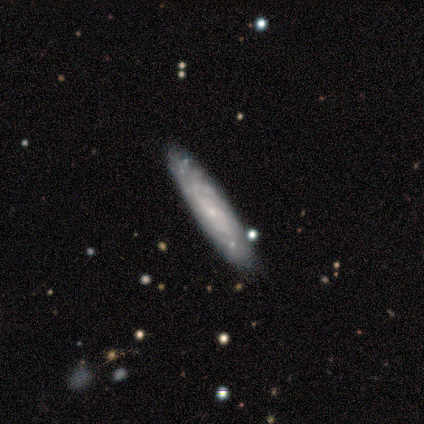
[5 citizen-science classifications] Q: Smooth or featured?
A: featured or disk (60%); runner-up: smooth (40%)
Q: Edge-on disk?
A: no (67%); runner-up: yes (33%)
Q: Bar?
A: no (100%)
Q: Spiral arms?
A: yes (100%)
Q: Spiral winding?
A: tight (50%); tied with: medium (50%)
Q: Spiral arm count?
A: 3 (50%); tied with: can't tell (50%)
Q: Bulge size?
A: moderate (50%); tied with: none (50%)
Q: Merging?
A: none (100%)